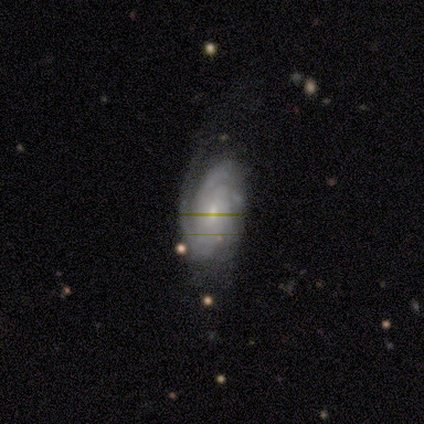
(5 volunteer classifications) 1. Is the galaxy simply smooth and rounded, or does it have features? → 100% featured or disk, 0% smooth, 0% star or artifact.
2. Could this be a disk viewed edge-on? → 100% no, 0% yes.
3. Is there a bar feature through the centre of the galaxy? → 80% no, 20% weak, 0% strong.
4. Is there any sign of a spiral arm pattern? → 100% yes, 0% no.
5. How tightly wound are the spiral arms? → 80% tight, 20% medium, 0% loose.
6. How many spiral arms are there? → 40% 3 (tied), 40% can't tell (tied), 20% 2, 0% 1, 0% 4, 0% more than 4.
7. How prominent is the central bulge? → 60% small, 40% moderate, 0% dominant, 0% large, 0% none.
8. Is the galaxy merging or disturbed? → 80% none, 20% minor disturbance, 0% major disturbance, 0% merger.